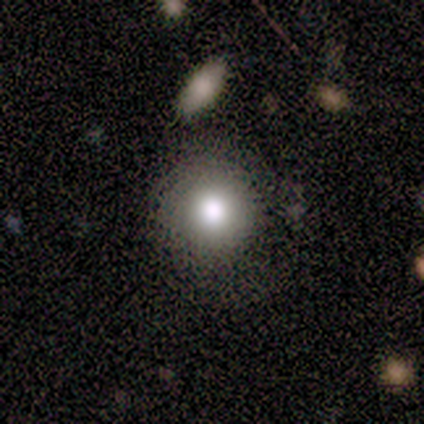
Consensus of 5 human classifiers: smooth_or_featured: smooth (p=0.80) [alt: featured or disk p=0.20]
how_rounded: round (p=1.00)
merging: none (p=0.80) [alt: minor disturbance p=0.20]